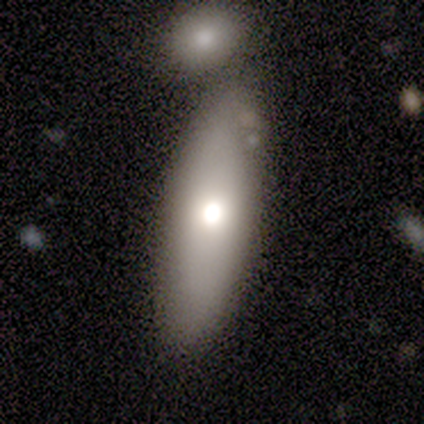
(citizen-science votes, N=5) Smooth or featured: smooth — 80% (featured or disk — 20%)
How rounded: in between — 50% (tied with cigar-shaped — 50%)
Merging: none — 80% (minor disturbance — 20%)